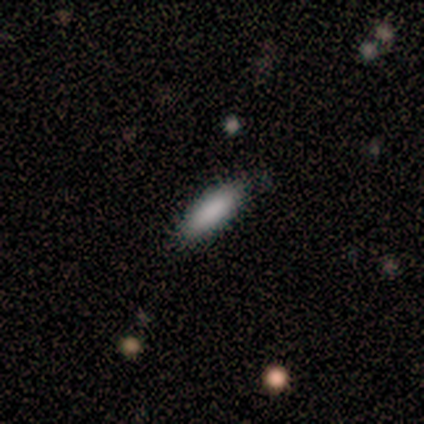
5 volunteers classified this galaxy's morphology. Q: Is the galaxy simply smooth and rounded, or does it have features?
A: smooth — 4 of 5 (80%).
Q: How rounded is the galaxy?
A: in between — 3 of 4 (75%).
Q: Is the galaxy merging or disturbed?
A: none — 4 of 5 (80%).